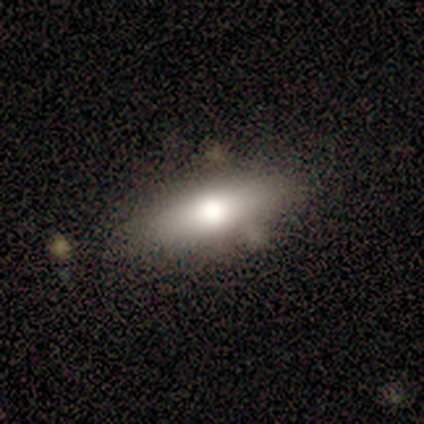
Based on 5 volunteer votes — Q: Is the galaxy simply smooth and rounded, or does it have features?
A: featured or disk — 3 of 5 (60%).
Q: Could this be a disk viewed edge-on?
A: yes — 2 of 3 (67%).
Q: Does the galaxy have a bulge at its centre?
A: rounded — 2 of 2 (100%).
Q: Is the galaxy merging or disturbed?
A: none — 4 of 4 (100%).